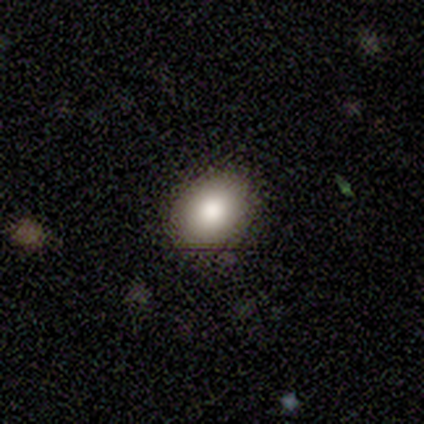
smooth 82%, featured or disk 15%, star or artifact 2%. Down the decision tree: how rounded — in between (70%); merging — none (82%).